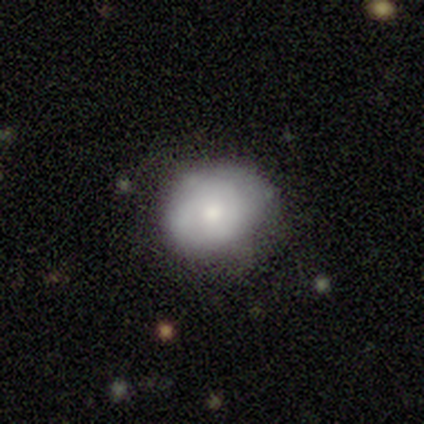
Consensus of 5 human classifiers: Smooth or featured: smooth — 100%
How rounded: round — 60% (in between — 40%)
Merging: minor disturbance — 60% (none — 20%)